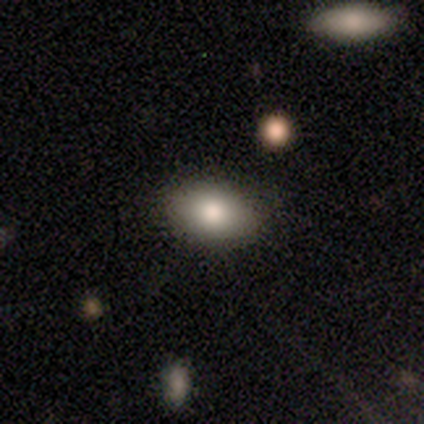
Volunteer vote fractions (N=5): Morphology: type=smooth (80%); roundness=in between (100%); merging=none (100%).